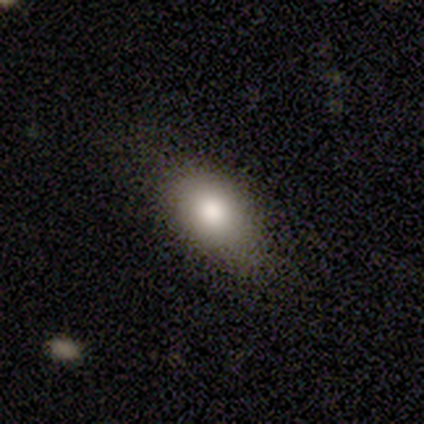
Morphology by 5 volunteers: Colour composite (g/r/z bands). It shows a smooth galaxy with no disk features (100%) that is in between round and cigar-shaped (100%). Merging: none (100%).